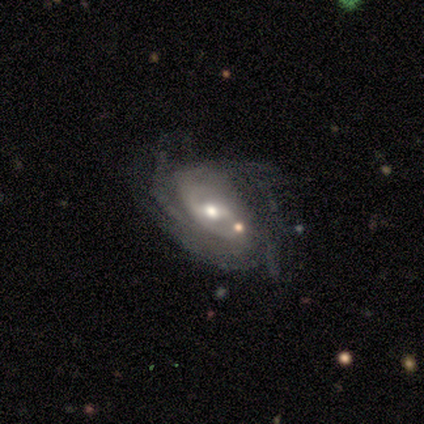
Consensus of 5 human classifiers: A featured or disk galaxy (100%) with a weak bar (60%), tight (60%) spiral arms (100%) and a moderate central bulge (60%). Merging: none (80%).